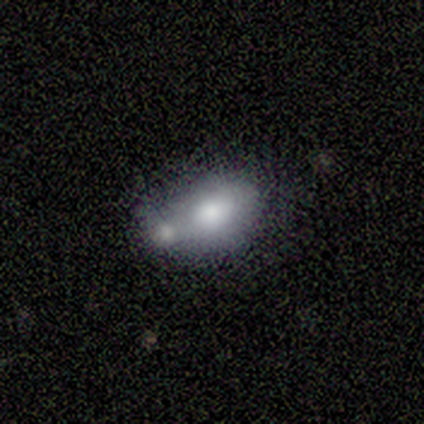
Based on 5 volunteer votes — smooth_or_featured: featured or disk (p=0.60) [alt: smooth p=0.40]
disk_edge_on: no (p=0.67) [alt: yes p=0.33]
bar: weak (p=0.50) [tied with: no p=0.50]
has_spiral_arms: no (p=1.00)
bulge_size: dominant (p=0.50) [tied with: large p=0.50]
merging: merger (p=1.00)